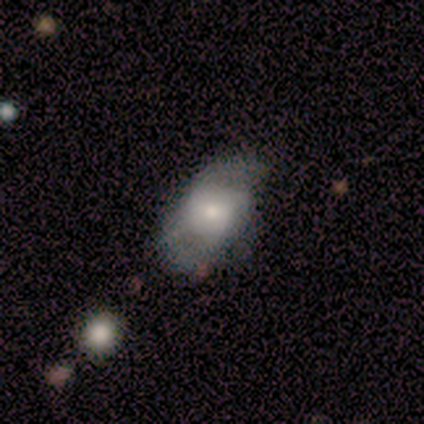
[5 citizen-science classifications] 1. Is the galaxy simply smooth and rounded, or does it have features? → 80% smooth, 20% featured or disk, 0% star or artifact.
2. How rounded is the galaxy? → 75% in between, 25% round, 0% cigar-shaped.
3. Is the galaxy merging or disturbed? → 60% none, 40% major disturbance, 0% minor disturbance, 0% merger.